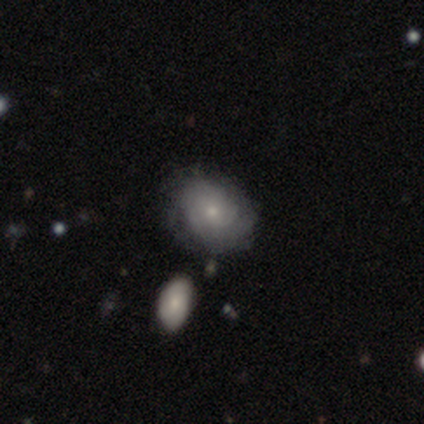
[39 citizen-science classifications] Volunteers were most divided on "spiral winding": tight: 65%, medium: 30%, loose: 5%. More confident: edge-on disk — no (96%); bar — no (88%); spiral arms — yes (80%); bulge size — small (72%); smooth or featured — featured or disk (67%); merging — none (66%); spiral arm count — can't tell (65%).